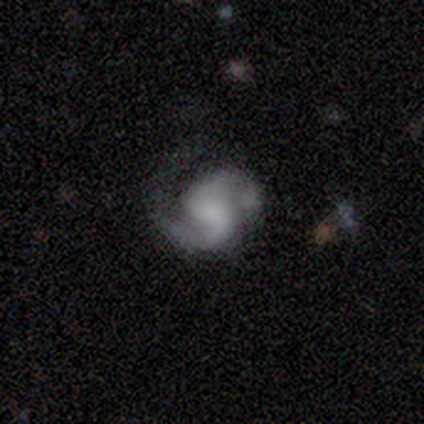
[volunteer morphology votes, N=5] A featured or disk galaxy (100%) with a weak bar (60%), 2 (100%) medium (60%) spiral arms (100%) and a small central bulge (40%).

Vote fractions:
- Smooth or featured? featured or disk: 100% / smooth: 0% / star or artifact: 0%
- Edge-on disk? no: 100% / yes: 0%
- Bar? weak: 60% / no: 40% / strong: 0%
- Spiral arms? yes: 100% / no: 0%
- Spiral winding? medium: 60% / tight: 40% / loose: 0%
- Spiral arm count? 2: 100% / 1: 0% / 3: 0% / 4: 0% / more than 4: 0% / can't tell: 0%
- Bulge size? small: 40% / large: 20% / moderate: 20% / none: 20% / dominant: 0%
- Merging? none: 60% / minor disturbance: 40% / major disturbance: 0% / merger: 0%